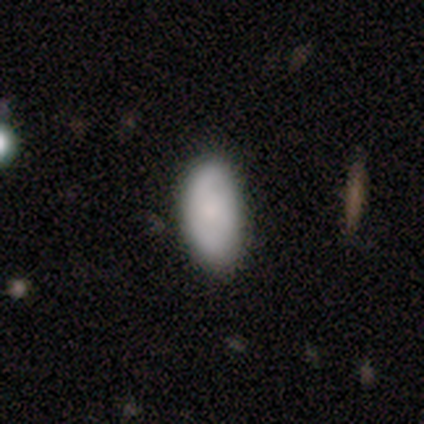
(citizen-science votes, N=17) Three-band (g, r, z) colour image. It shows a smooth galaxy with no disk features (82%) that is in between round and cigar-shaped (86%). Merging: none (56%).